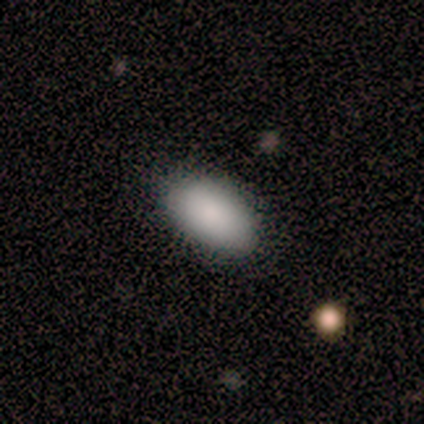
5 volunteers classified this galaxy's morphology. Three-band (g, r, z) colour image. It shows a smooth galaxy with no disk features (100%) that is in between round and cigar-shaped (100%). Merging: none (80%).